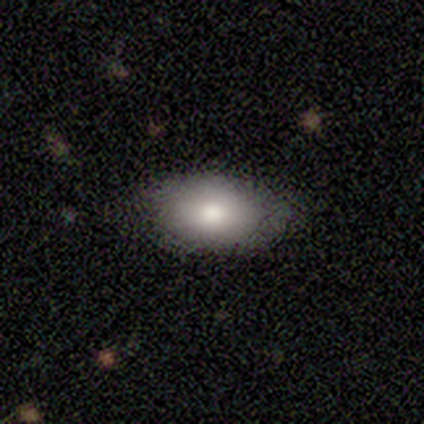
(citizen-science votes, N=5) Overall: smooth (80%). How rounded: in between (100%). Merging: none (80%).